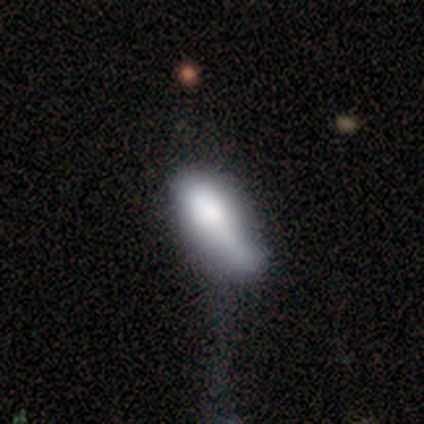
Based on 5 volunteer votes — A smooth galaxy with no disk features (100%) that is in between round and cigar-shaped (60%). Merging: minor disturbance (60%).